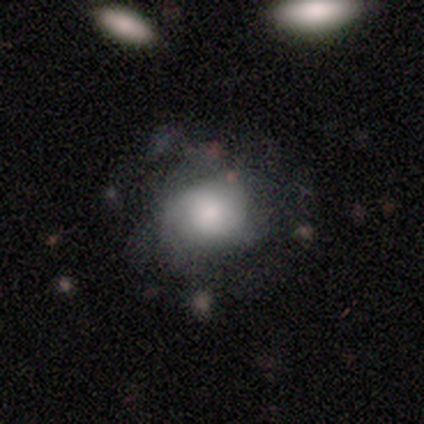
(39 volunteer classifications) Smooth or featured? featured or disk (51%)
Edge-on disk? no (95%)
Bar? no (95%)
Spiral arms? yes (79%)
Spiral winding? medium (47%)
Spiral arm count? can't tell (47%)
Bulge size? large (32%, tied with moderate)
Merging? none (36%)